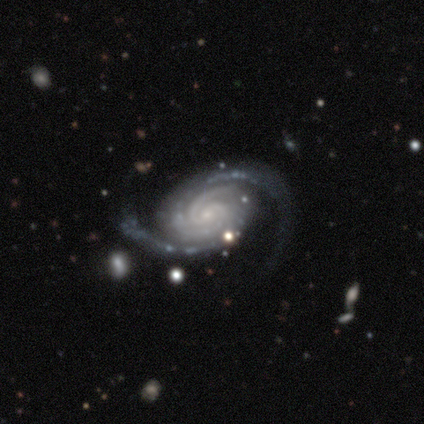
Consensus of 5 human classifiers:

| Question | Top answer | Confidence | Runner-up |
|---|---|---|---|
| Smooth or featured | featured or disk | 100% | — |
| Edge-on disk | no | 100% | — |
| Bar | no | 60% | weak (40%) |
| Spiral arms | yes | 100% | — |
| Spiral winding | tight | 80% | medium (20%) |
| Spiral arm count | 2 | 100% | — |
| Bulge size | small | 80% | none (20%) |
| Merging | none | 40% | tied: minor disturbance (40%) |